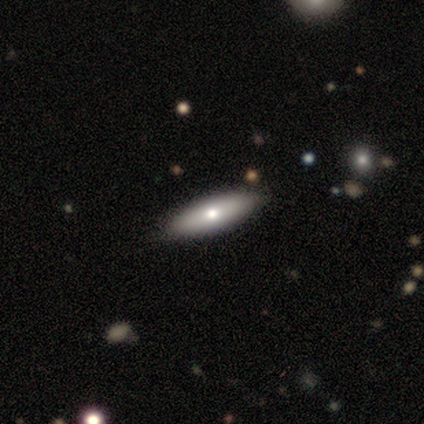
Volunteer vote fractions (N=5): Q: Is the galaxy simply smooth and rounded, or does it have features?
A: featured or disk — 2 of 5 (40%, tied with star or artifact).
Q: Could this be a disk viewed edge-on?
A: yes — 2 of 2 (100%).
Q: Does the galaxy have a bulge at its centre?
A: rounded — 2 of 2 (100%).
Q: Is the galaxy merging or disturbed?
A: none — 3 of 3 (100%).